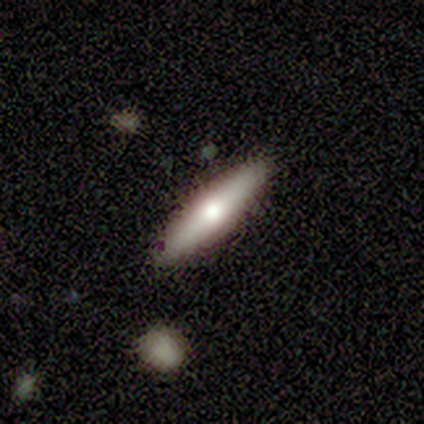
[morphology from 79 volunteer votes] This appears to be a smooth galaxy with no disk features (59%) that is cigar-shaped (68%). Merging: none (49%).